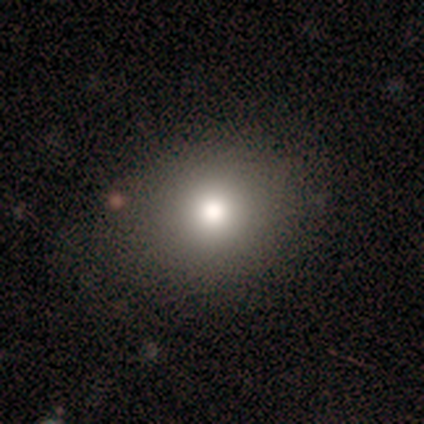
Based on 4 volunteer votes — A smooth galaxy with no disk features (75%) that is round (33%, tied with in between and cigar-shaped).

Vote fractions:
- Smooth or featured? smooth: 75% / star or artifact: 25% / featured or disk: 0%
- How rounded? round: 33% (tied) / in between: 33% (tied) / cigar-shaped: 33% (tied)
- Merging? none: 67% / merger: 33% / minor disturbance: 0% / major disturbance: 0%